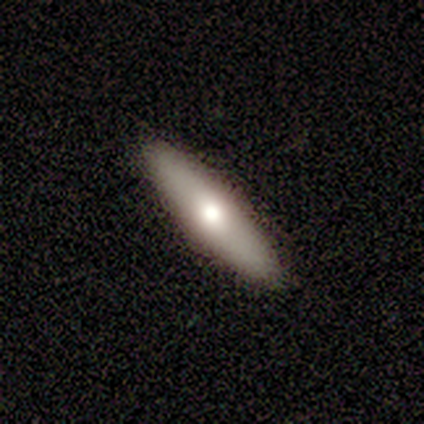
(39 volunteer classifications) Smooth or featured: smooth — 54% (featured or disk — 46%)
How rounded: cigar-shaped — 81% (in between — 19%)
Merging: none — 90% (minor disturbance — 8%)